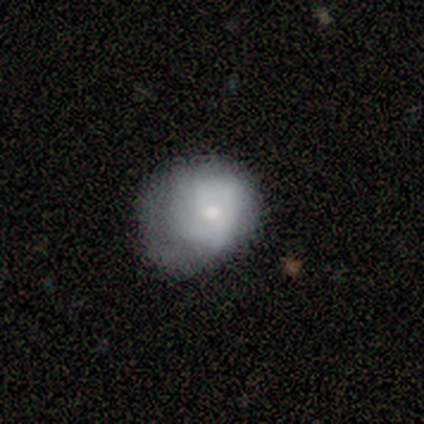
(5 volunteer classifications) Smooth or featured: smooth — 60% (featured or disk — 40%)
How rounded: in between — 67% (round — 33%)
Merging: major disturbance — 80% (minor disturbance — 20%)